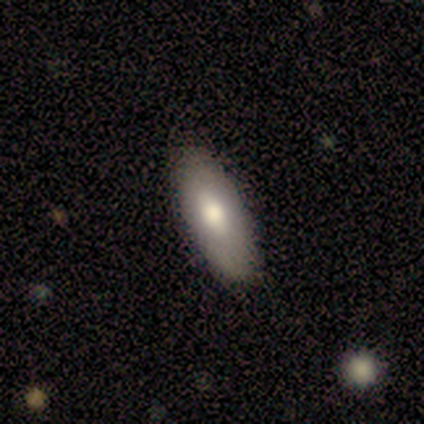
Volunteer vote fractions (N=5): smooth_or_featured: smooth (p=0.80) [alt: featured or disk p=0.20]
how_rounded: in between (p=0.75) [alt: cigar-shaped p=0.25]
merging: none (p=0.80) [alt: minor disturbance p=0.20]